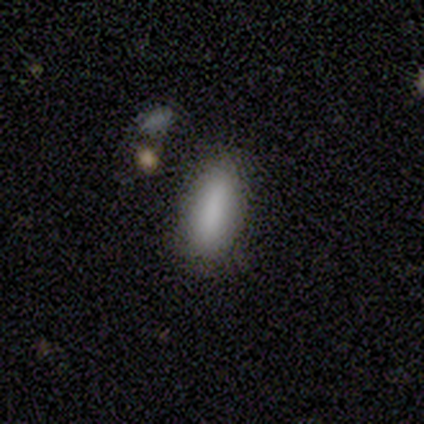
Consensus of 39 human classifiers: smooth-or-featured: smooth: 85% | star or artifact: 10% | featured or disk: 5%
  how-rounded: in between: 61% | cigar-shaped: 39% | round: 0%
  merging: none: 77% | minor disturbance: 23% | major disturbance: 0% | merger: 0%